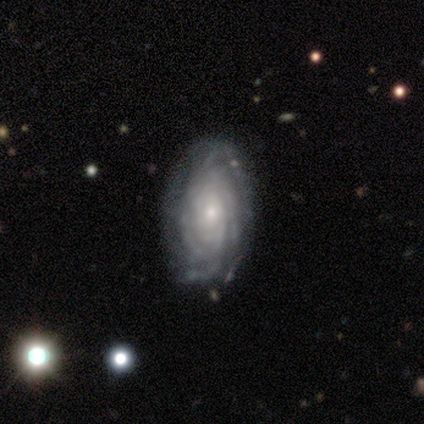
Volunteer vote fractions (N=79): Smooth or featured?
  - featured or disk: 94% *
  - smooth: 4%
  - star or artifact: 3%
Edge-on disk?
  - no: 100% *
  - yes: 0%
Bar?
  - no: 80% *
  - weak: 18%
  - strong: 3%
Spiral arms?
  - yes: 99% *
  - no: 1%
Spiral winding?
  - tight: 85% *
  - medium: 10%
  - loose: 5%
Spiral arm count?
  - can't tell: 36% *
  - more than 4: 32%
  - 4: 23%
  - 3: 8%
  - 2: 1%
  - 1: 0%
Bulge size?
  - small: 68% *
  - moderate: 28%
  - large: 4%
  - dominant: 0%
  - none: 0%
Merging?
  - none: 47% *
  - minor disturbance: 4%
  - major disturbance: 1%
  - merger: 1%